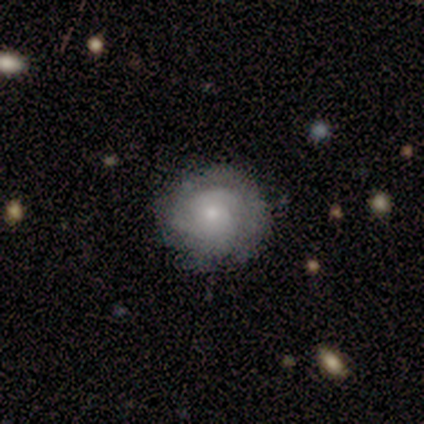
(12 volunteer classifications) smooth-or-featured: featured or disk: 75% | smooth: 25% | star or artifact: 0%
  disk-edge-on: no: 100% | yes: 0%
    bar: no: 100% | strong: 0% | weak: 0%
    has-spiral-arms: yes: 100% | no: 0%
      spiral-winding: tight: 78% | medium: 22% | loose: 0%
      spiral-arm-count: 2: 56% | 3: 22% | 4: 11% | can't tell: 11% | 1: 0% | more than 4: 0%
    bulge-size: small: 67% | moderate: 33% | dominant: 0% | large: 0% | none: 0%
  merging: none: 75% | minor disturbance: 17% | major disturbance: 8% | merger: 0%